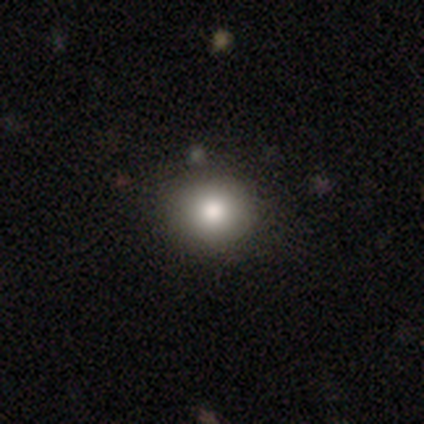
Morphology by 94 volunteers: smooth_or_featured: smooth (p=0.79) [alt: featured or disk p=0.12]
how_rounded: round (p=0.92) [alt: in between p=0.08]
merging: none (p=0.95) [alt: minor disturbance p=0.05]